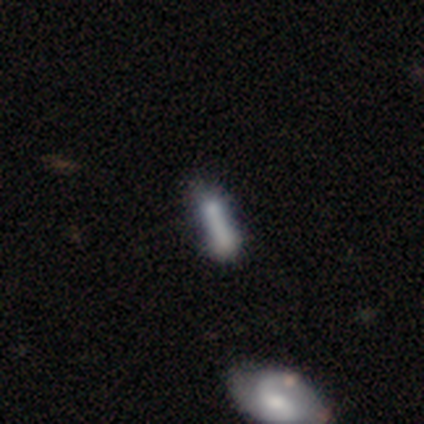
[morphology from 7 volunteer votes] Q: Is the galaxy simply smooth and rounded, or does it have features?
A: smooth — 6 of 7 (86%).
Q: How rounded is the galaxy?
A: cigar-shaped — 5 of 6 (83%).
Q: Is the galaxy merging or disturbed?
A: minor disturbance — 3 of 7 (43%).